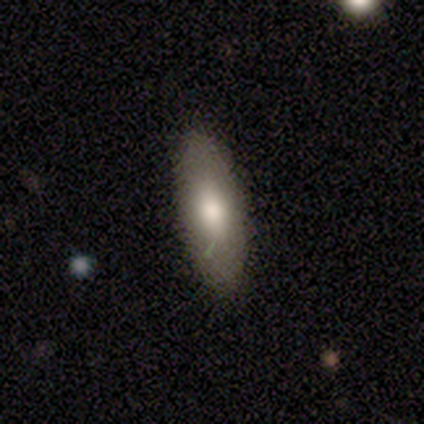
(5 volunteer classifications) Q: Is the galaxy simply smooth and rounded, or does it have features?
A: smooth — 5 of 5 (100%).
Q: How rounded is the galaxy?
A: in between — 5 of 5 (100%).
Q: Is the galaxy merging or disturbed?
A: none — 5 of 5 (100%).